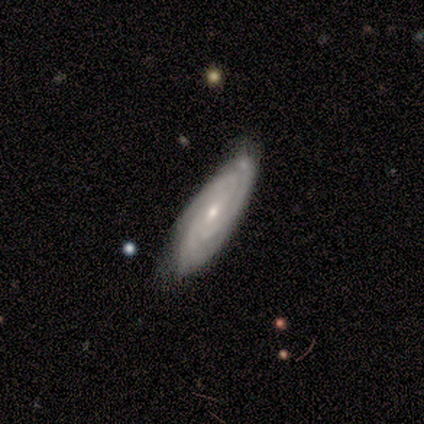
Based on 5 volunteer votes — Q: Smooth or featured?
A: featured or disk (80%); runner-up: smooth (20%)
Q: Edge-on disk?
A: no (100%)
Q: Bar?
A: no (100%)
Q: Spiral arms?
A: yes (100%)
Q: Spiral winding?
A: tight (100%)
Q: Spiral arm count?
A: 3 (50%); tied with: can't tell (50%)
Q: Bulge size?
A: small (50%); runner-up: moderate (25%)
Q: Merging?
A: none (100%)